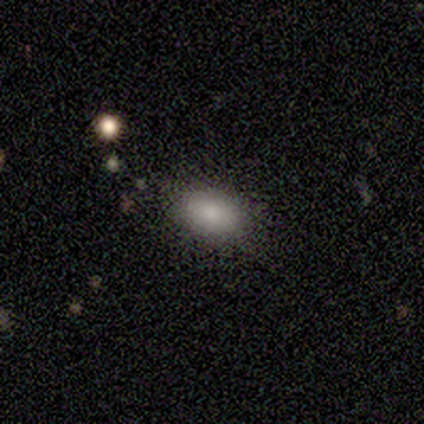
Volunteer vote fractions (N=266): Volunteers were most divided on "how rounded": in between: 82%, round: 18%, cigar-shaped: 0%. More confident: smooth or featured — smooth (83%); merging — none (81%).